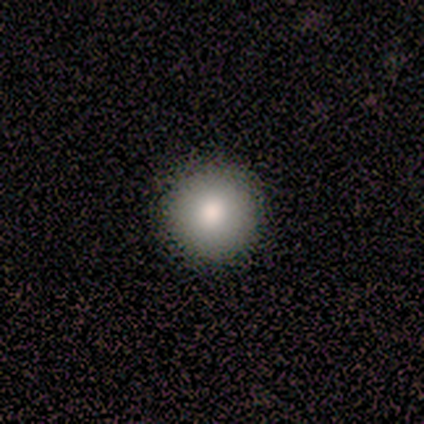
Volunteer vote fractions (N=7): Smooth or featured?
  - smooth: 86% *
  - star or artifact: 14%
  - featured or disk: 0%
How rounded?
  - round: 83% *
  - in between: 17%
  - cigar-shaped: 0%
Merging?
  - none: 50% *
  - minor disturbance: 33%
  - major disturbance: 17%
  - merger: 0%